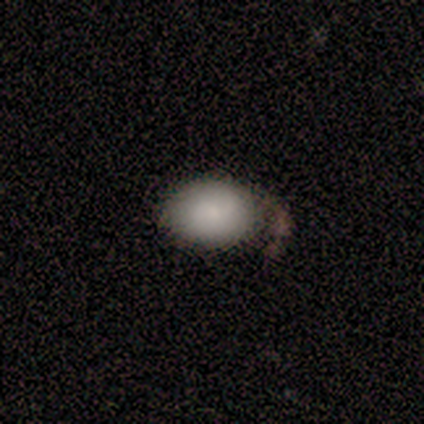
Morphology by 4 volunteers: smooth 75%, featured or disk 25%, star or artifact 0%. Down the decision tree: how rounded — in between (100%); merging — none (50%).